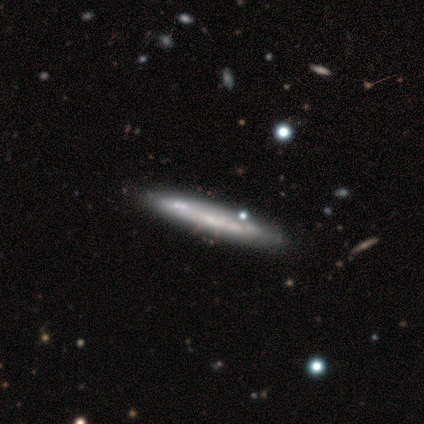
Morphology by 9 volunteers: Smooth or featured? featured or disk (56%)
Edge-on disk? yes (80%)
Edge-on bulge? none (100%)
Merging? none (88%)